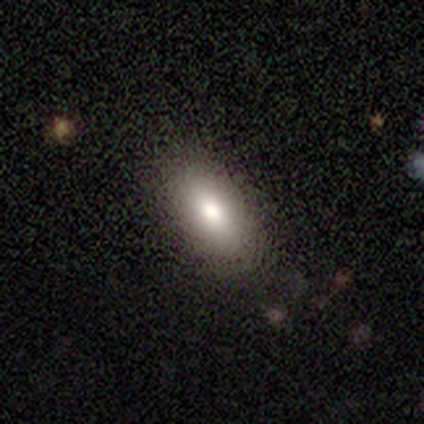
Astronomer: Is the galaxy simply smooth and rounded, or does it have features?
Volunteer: smooth — 60%.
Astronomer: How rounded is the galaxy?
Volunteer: in between — 100%.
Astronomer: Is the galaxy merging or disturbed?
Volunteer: none — 100%.